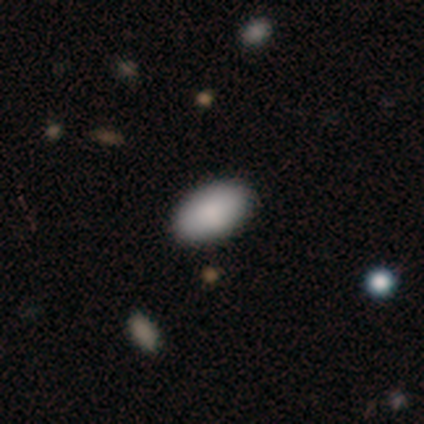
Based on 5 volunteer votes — A smooth galaxy with no disk features (100%) that is in between round and cigar-shaped (60%). Merging: none (60%).